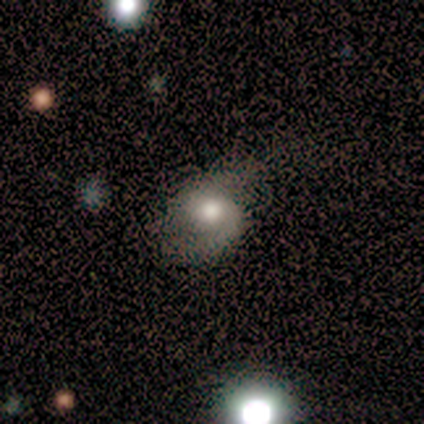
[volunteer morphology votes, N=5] A smooth galaxy with no disk features (80%) that is in between round and cigar-shaped (75%).

Vote fractions:
- Smooth or featured? smooth: 80% / featured or disk: 20% / star or artifact: 0%
- How rounded? in between: 75% / round: 25% / cigar-shaped: 0%
- Merging? major disturbance: 60% / none: 20% / minor disturbance: 20% / merger: 0%